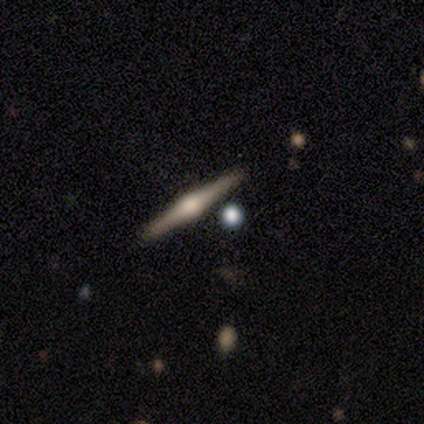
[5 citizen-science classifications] smooth-or-featured: featured or disk: 100% | smooth: 0% | star or artifact: 0%
  disk-edge-on: yes: 100% | no: 0%
    edge-on-bulge: rounded: 100% | boxy: 0% | none: 0%
  merging: none: 100% | minor disturbance: 0% | major disturbance: 0% | merger: 0%